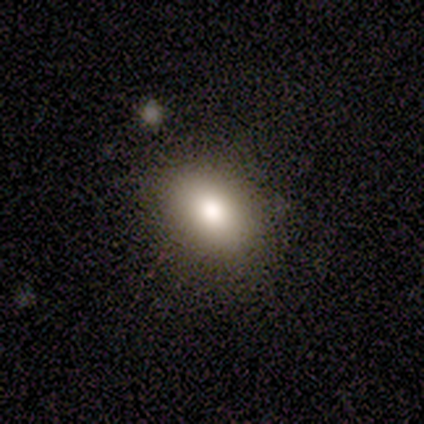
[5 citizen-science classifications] smooth-or-featured: smooth: 80% | featured or disk: 20% | star or artifact: 0%
  how-rounded: in between: 75% | round: 25% | cigar-shaped: 0%
  merging: none: 80% | minor disturbance: 20% | major disturbance: 0% | merger: 0%